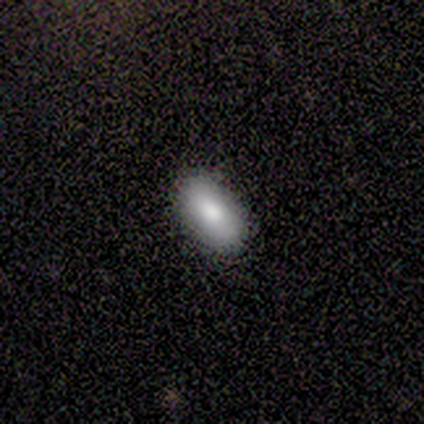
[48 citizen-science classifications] smooth-or-featured: smooth: 83% | featured or disk: 15% | star or artifact: 2%
  how-rounded: in between: 98% | round: 2% | cigar-shaped: 0%
  merging: none: 96% | minor disturbance: 4% | major disturbance: 0% | merger: 0%